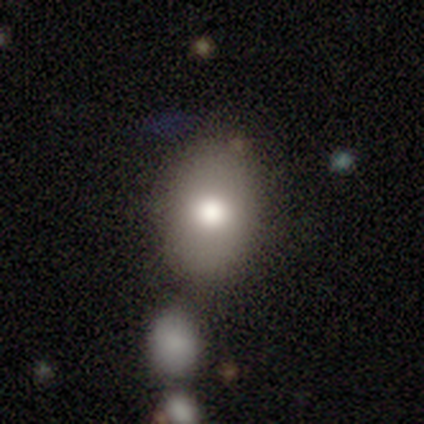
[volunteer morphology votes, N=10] Smooth or featured: smooth — 80% (featured or disk — 10%)
How rounded: in between — 75% (round — 25%)
Merging: none — 67% (major disturbance — 22%)